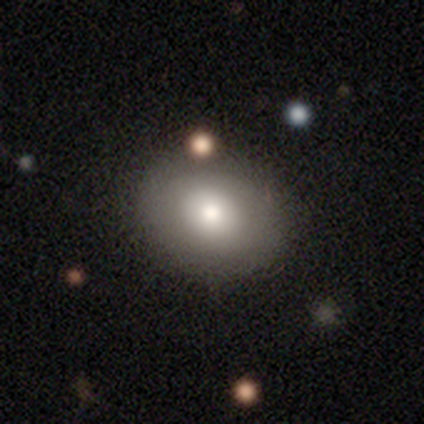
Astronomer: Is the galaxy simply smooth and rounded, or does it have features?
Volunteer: smooth — 71%.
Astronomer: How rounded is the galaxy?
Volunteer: round — 56% (runner-up: in between, 44%).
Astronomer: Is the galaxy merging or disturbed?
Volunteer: none — 80%.